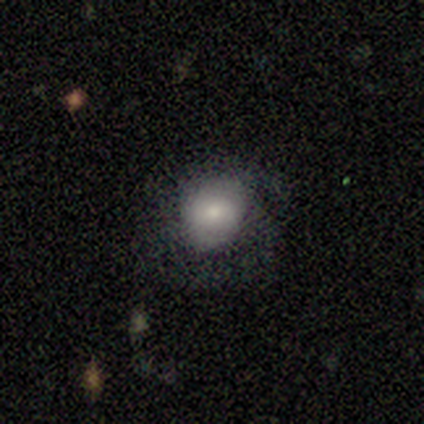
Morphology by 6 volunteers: Smooth or featured?
  - smooth: 67% *
  - featured or disk: 33%
  - star or artifact: 0%
How rounded?
  - in between: 75% *
  - round: 25%
  - cigar-shaped: 0%
Merging?
  - none: 50% * (tied)
  - major disturbance: 50% * (tied)
  - minor disturbance: 0%
  - merger: 0%